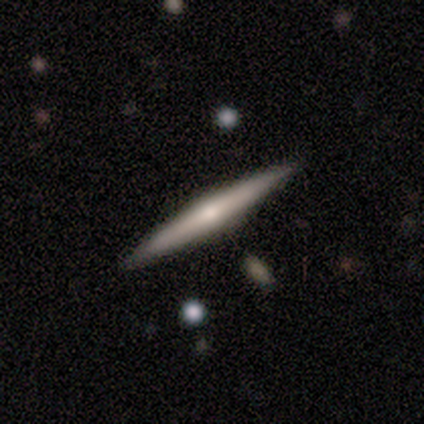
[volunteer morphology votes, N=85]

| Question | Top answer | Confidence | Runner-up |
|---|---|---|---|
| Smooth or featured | featured or disk | 65% | smooth (33%) |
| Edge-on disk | yes | 100% | — |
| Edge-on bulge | rounded | 75% | none (24%) |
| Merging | none | 86% | minor disturbance (11%) |